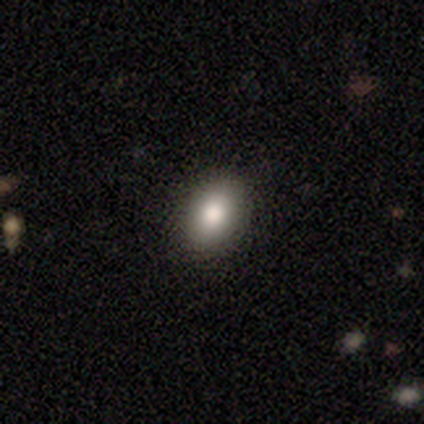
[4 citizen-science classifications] Morphology: type=smooth (100%); roundness=in between (75%); merging=none (75%).